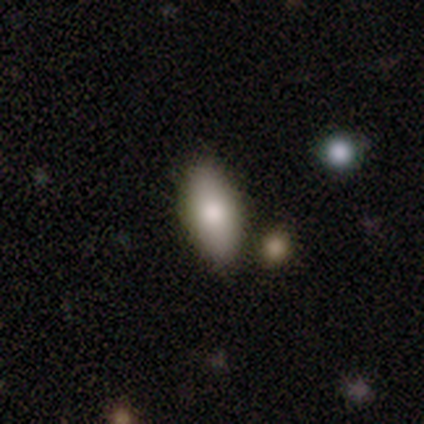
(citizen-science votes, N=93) This is likely a smooth galaxy (80%). How rounded: clearly in between (93%). Merging: likely none (76%).